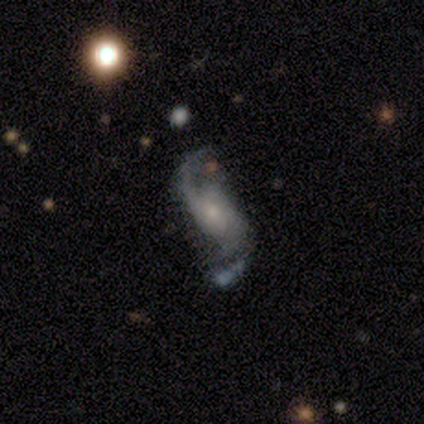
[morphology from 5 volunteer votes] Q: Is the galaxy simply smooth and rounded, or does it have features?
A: featured or disk — 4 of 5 (80%).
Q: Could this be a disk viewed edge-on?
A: no — 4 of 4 (100%).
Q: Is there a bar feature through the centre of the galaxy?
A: no — 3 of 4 (75%).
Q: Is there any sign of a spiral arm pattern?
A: yes — 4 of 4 (100%).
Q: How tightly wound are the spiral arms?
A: medium — 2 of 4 (50%).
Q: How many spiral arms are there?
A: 2 — 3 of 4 (75%).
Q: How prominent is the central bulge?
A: moderate — 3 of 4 (75%).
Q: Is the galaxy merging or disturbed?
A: major disturbance — 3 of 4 (75%).